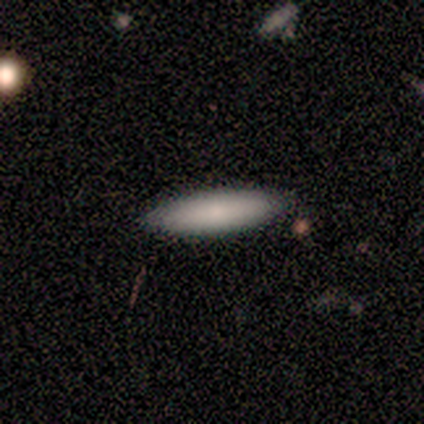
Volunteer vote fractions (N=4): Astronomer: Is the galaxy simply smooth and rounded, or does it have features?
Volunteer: smooth — 75%.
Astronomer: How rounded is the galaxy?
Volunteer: in between — 100%.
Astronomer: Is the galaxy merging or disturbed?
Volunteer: none — 50%.